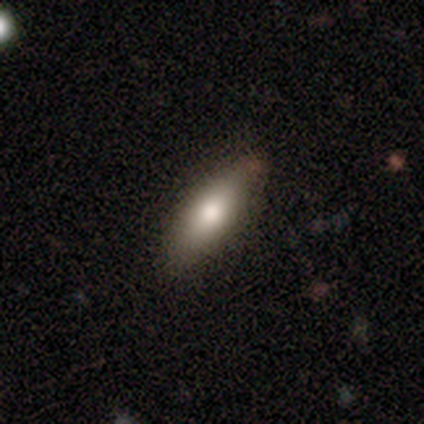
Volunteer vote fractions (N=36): Morphology: type=smooth (67%); roundness=in between (58%); merging=none (84%).